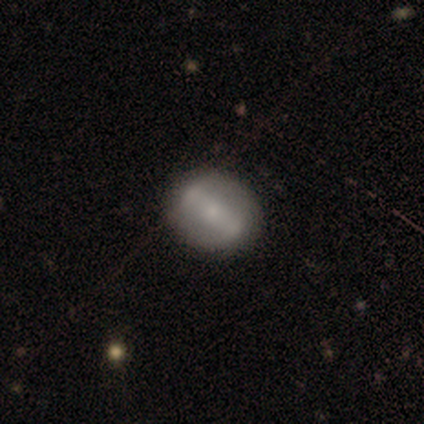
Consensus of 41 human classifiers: Overall: featured or disk (71%). Edge-on disk: no (93%). Bar: strong (52%; weak 33%). Spiral arms: no (52%; yes 48%). Bulge size: small (63%). Merging: none (89%).